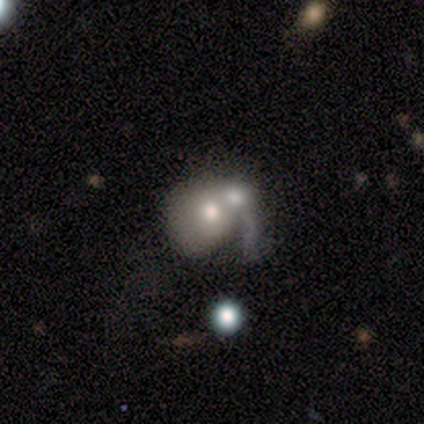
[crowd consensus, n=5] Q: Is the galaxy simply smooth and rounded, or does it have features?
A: smooth — 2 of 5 (40%, tied with featured or disk).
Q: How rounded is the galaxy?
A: round — 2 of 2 (100%).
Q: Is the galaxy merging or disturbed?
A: merger — 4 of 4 (100%).